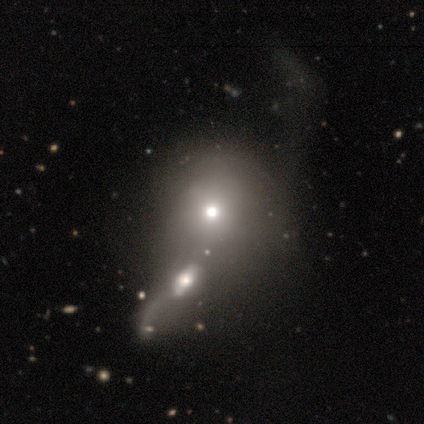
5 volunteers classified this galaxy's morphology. smooth_or_featured: smooth (p=0.60) [alt: featured or disk p=0.20]
how_rounded: round (p=0.67) [alt: in between p=0.33]
merging: minor disturbance (p=0.50) [alt: major disturbance p=0.25]